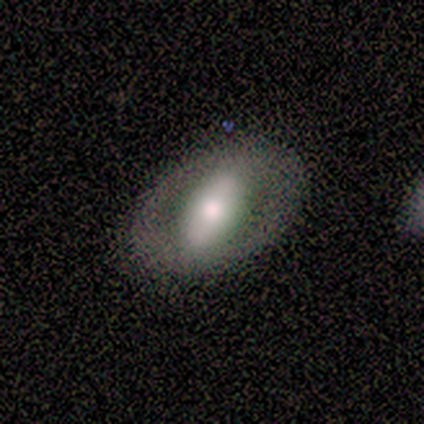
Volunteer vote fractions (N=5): A smooth galaxy with no disk features (60%) that is in between round and cigar-shaped (100%). Merging: none (100%).